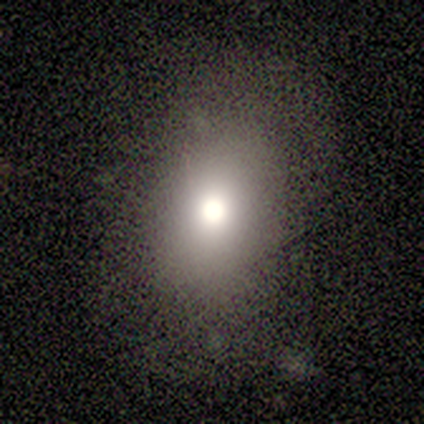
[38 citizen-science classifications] smooth_or_featured: smooth (p=0.82) [alt: star or artifact p=0.16]
how_rounded: in between (p=0.71) [alt: round p=0.29]
merging: none (p=0.78) [alt: minor disturbance p=0.16]